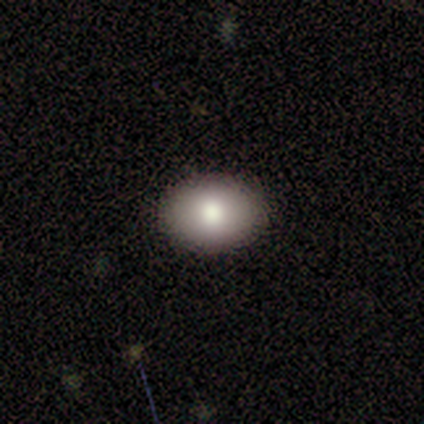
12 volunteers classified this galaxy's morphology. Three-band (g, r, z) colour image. It shows a smooth galaxy with no disk features (75%) that is in between round and cigar-shaped (67%). Merging: none (100%).